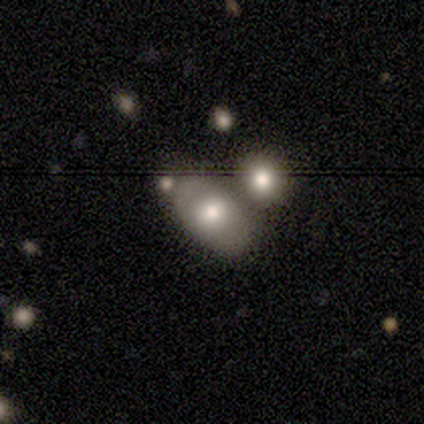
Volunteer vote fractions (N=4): Smooth or featured? 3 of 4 (75%) said smooth. How rounded? 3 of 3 (100%) said in between. Merging? 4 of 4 (100%) said none.